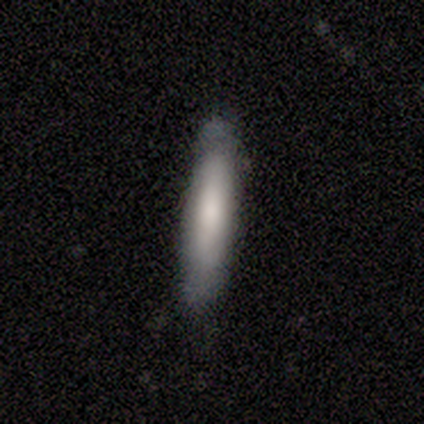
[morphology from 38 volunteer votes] A smooth galaxy with no disk features (66%) that is cigar-shaped (88%). Merging: none (63%).